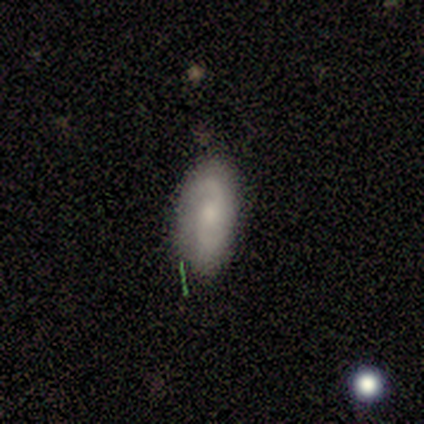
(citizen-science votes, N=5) smooth 40% (tied), featured or disk 40% (tied), star or artifact 20%. Down the decision tree: how rounded — in between (100%); merging — none (100%).